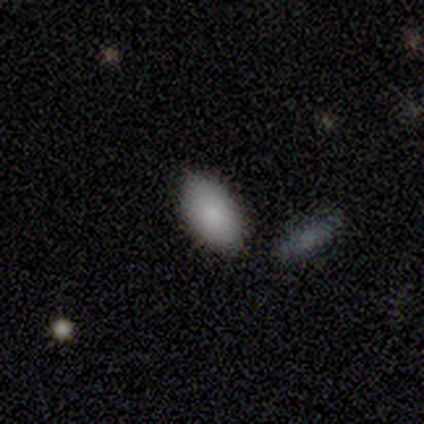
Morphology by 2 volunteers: smooth-or-featured: smooth: 100% | featured or disk: 0% | star or artifact: 0%
  how-rounded: in between: 100% | round: 0% | cigar-shaped: 0%
  merging: none: 100% | minor disturbance: 0% | major disturbance: 0% | merger: 0%